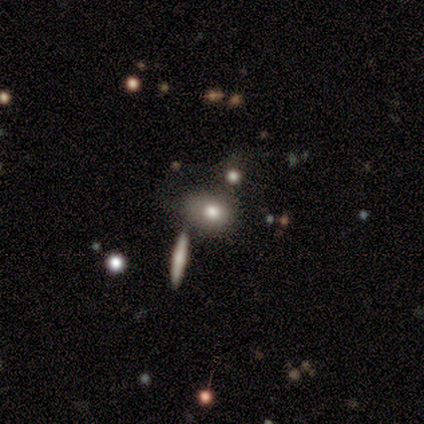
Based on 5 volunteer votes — smooth 100%, featured or disk 0%, star or artifact 0%. Down the decision tree: how rounded — in between (60%); merging — none (60%).